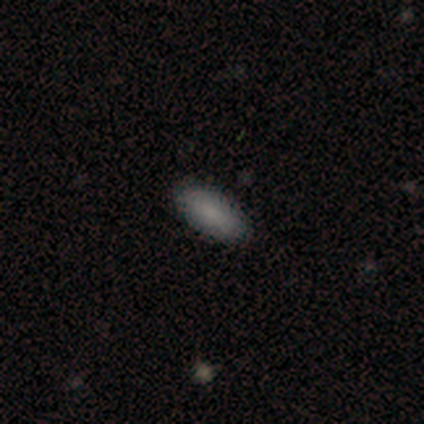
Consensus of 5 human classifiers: smooth-or-featured: smooth: 100% | featured or disk: 0% | star or artifact: 0%
  how-rounded: in between: 80% | cigar-shaped: 20% | round: 0%
  merging: none: 80% | major disturbance: 20% | minor disturbance: 0% | merger: 0%